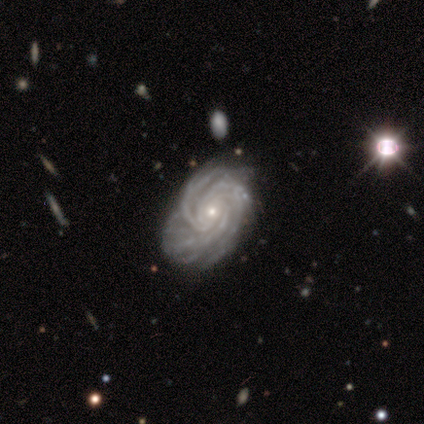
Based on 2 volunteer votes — A featured or disk galaxy (100%) with no bar (100%), 3 (50%, tied with more than 4) tight (50%, tied with medium) spiral arms (100%) and a moderate central bulge (50%, tied with small). Merging: minor disturbance (50%, tied with merger).